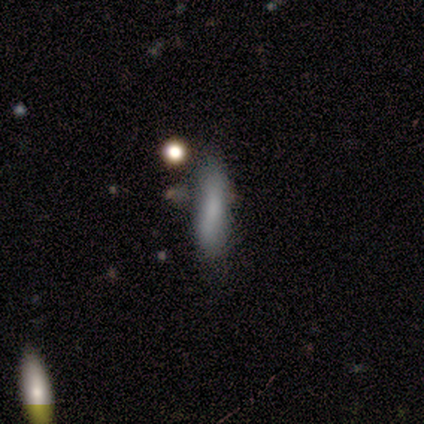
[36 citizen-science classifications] Smooth or featured: smooth — 75% (featured or disk — 17%)
How rounded: cigar-shaped — 74% (in between — 26%)
Merging: none — 70% (minor disturbance — 24%)